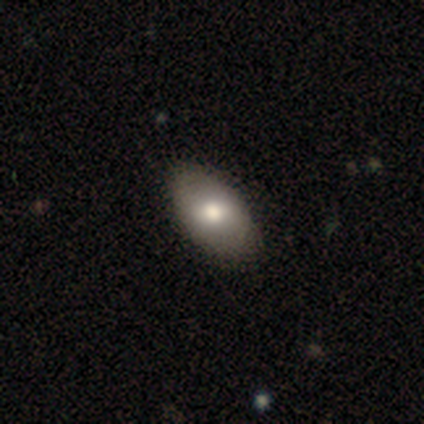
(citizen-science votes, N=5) Overall: smooth (40%, tied with featured or disk). How rounded: in between (100%). Merging: none (75%).